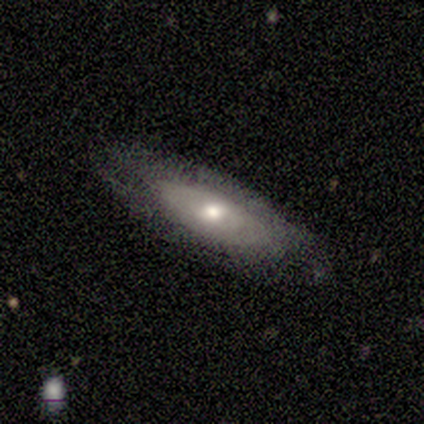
Volunteers were most divided on "smooth or featured" (2-way tie): smooth: 40%, featured or disk: 40%, star or artifact: 20%. More confident: how rounded — in between (100%); merging — none (100%).